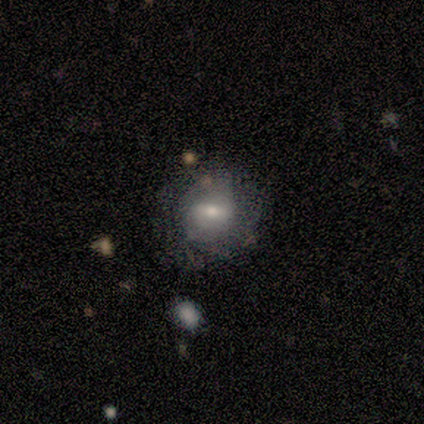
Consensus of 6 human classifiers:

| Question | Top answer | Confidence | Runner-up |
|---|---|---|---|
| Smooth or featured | smooth | 67% | featured or disk (33%) |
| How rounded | round | 75% | in between (25%) |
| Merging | none | 83% | major disturbance (17%) |